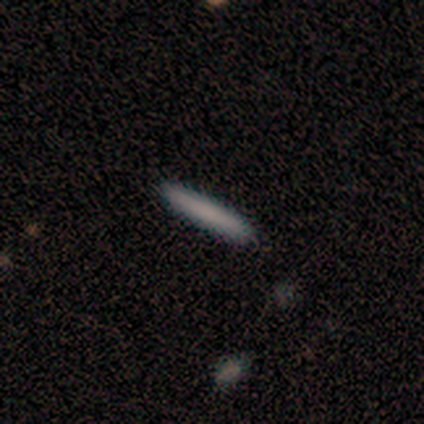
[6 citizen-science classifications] Q: Smooth or featured?
A: smooth (67%); runner-up: featured or disk (33%)
Q: How rounded?
A: cigar-shaped (100%)
Q: Merging?
A: none (100%)